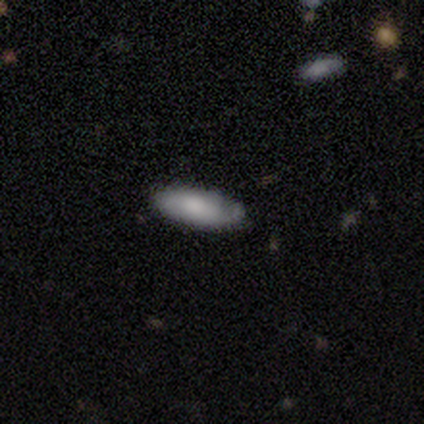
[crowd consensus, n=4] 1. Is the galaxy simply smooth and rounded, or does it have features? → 50% smooth, 25% featured or disk, 25% star or artifact.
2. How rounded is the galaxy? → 50% in between (tied), 50% cigar-shaped (tied), 0% round.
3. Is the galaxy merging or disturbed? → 100% none, 0% minor disturbance, 0% major disturbance, 0% merger.